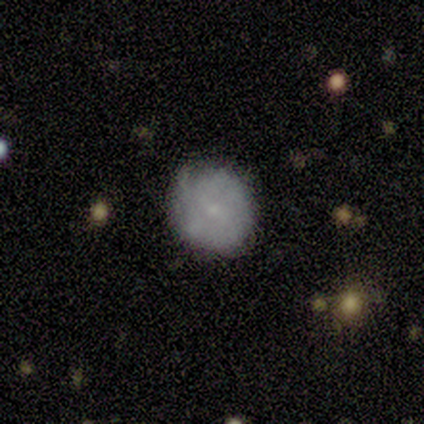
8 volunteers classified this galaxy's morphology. Volunteers were most divided on "smooth or featured": smooth: 62%, featured or disk: 38%, star or artifact: 0%. More confident: how rounded — round (100%); merging — none (75%).